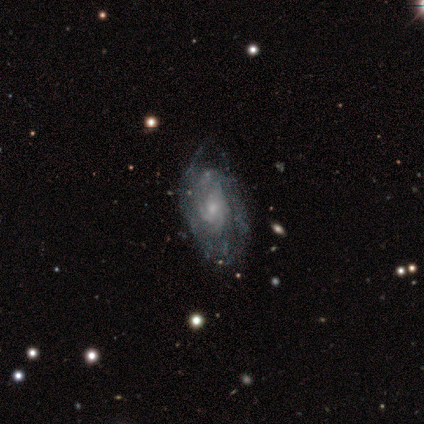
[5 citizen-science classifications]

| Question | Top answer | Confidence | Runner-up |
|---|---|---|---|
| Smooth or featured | featured or disk | 80% | star or artifact (20%) |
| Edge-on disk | no | 100% | — |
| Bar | weak | 75% | no (25%) |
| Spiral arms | yes | 100% | — |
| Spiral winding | tight | 75% | medium (25%) |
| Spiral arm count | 3 | 50% | 4 (25%) |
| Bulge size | small | 75% | moderate (25%) |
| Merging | minor disturbance | 50% | none (25%) |